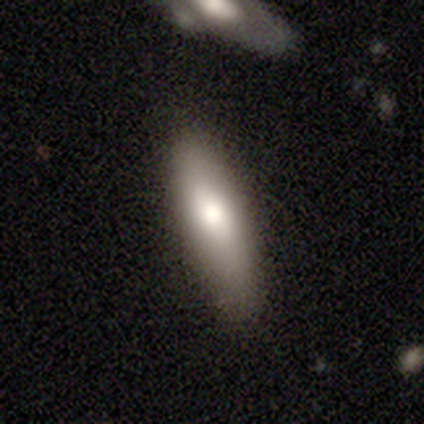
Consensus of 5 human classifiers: Volunteers were most divided on "how rounded" (2-way tie): in between: 50%, cigar-shaped: 50%, round: 0%. More confident: smooth or featured — smooth (80%); merging — none (80%).